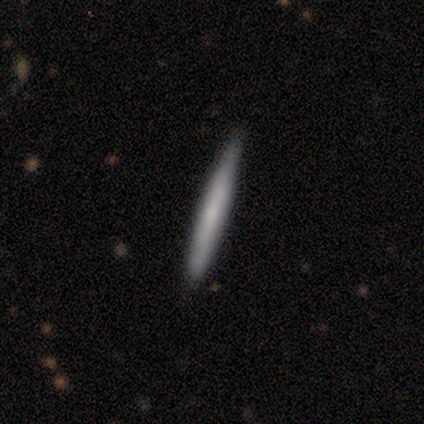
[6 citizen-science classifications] Q: Smooth or featured?
A: smooth (67%); runner-up: featured or disk (33%)
Q: How rounded?
A: cigar-shaped (100%)
Q: Merging?
A: none (83%); runner-up: minor disturbance (17%)